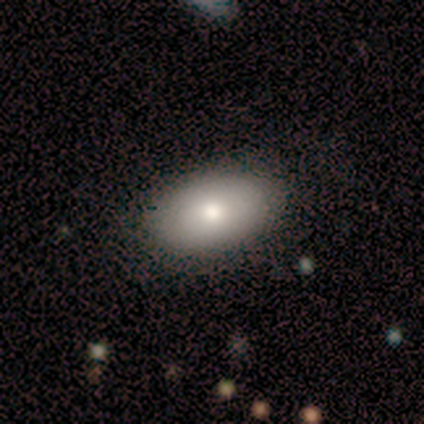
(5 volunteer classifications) A smooth galaxy with no disk features (80%) that is in between round and cigar-shaped (100%).

Vote fractions:
- Smooth or featured? smooth: 80% / featured or disk: 20% / star or artifact: 0%
- How rounded? in between: 100% / round: 0% / cigar-shaped: 0%
- Merging? none: 100% / minor disturbance: 0% / major disturbance: 0% / merger: 0%